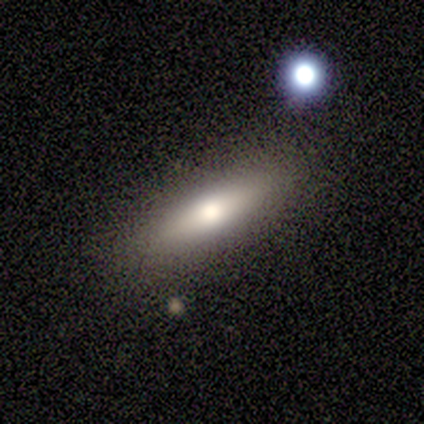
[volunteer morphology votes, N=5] Overall: smooth (60%; featured or disk 40%). How rounded: cigar-shaped (67%; in between 33%). Merging: none (80%).